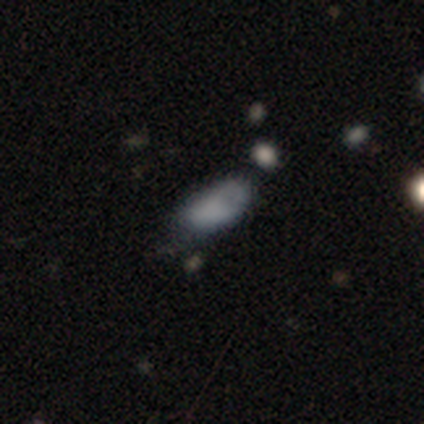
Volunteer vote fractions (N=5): smooth-or-featured: smooth: 80% | featured or disk: 20% | star or artifact: 0%
  how-rounded: in between: 100% | round: 0% | cigar-shaped: 0%
  merging: minor disturbance: 40% (tied) | major disturbance: 40% (tied) | none: 20% | merger: 0%